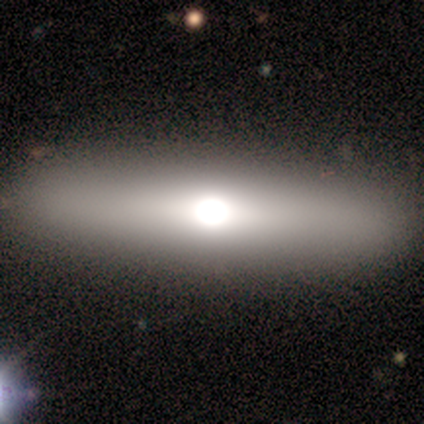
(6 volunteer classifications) smooth_or_featured: smooth (p=0.50) [alt: featured or disk p=0.33]
how_rounded: cigar-shaped (p=1.00)
merging: none (p=1.00)